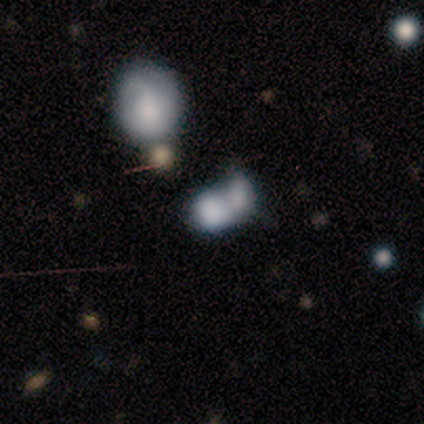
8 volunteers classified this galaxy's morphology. smooth 88%, featured or disk 12%, star or artifact 0%. Down the decision tree: how rounded — in between (57%); merging — merger (50%).